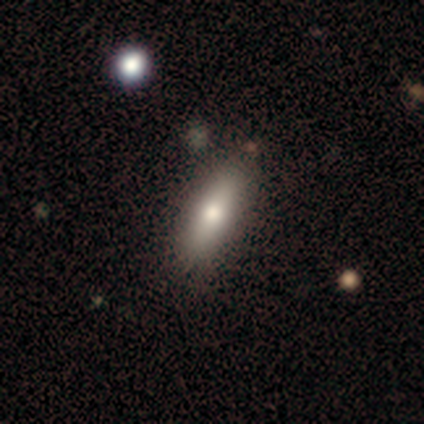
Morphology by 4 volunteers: This appears to be a smooth galaxy with no disk features (75%) that is cigar-shaped (67%). Merging: none (67%).